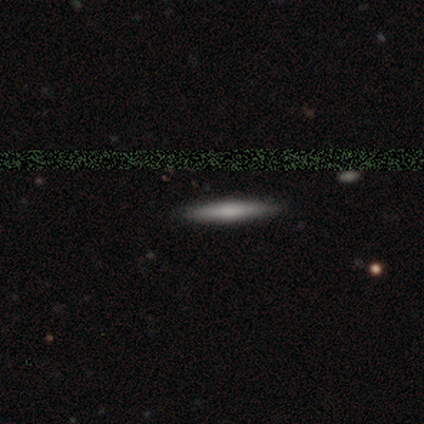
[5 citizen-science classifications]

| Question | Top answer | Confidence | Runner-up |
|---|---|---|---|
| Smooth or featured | smooth | 100% | — |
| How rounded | cigar-shaped | 100% | — |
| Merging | none | 100% | — |